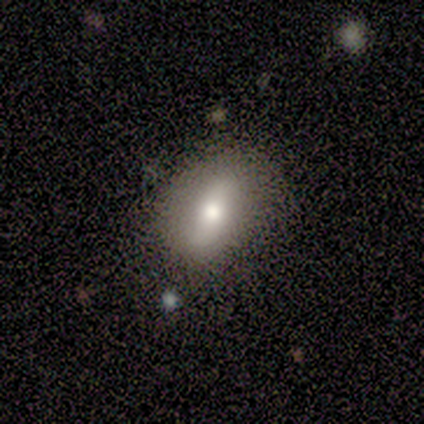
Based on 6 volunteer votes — A featured or disk galaxy (50%) with no bar (67%), no spiral arms (100%) and a large central bulge (33%, tied with moderate and small).

Vote fractions:
- Smooth or featured? featured or disk: 50% / smooth: 33% / star or artifact: 17%
- Edge-on disk? no: 100% / yes: 0%
- Bar? no: 67% / weak: 33% / strong: 0%
- Spiral arms? no: 100% / yes: 0%
- Bulge size? large: 33% (tied) / moderate: 33% (tied) / small: 33% (tied) / dominant: 0% / none: 0%
- Merging? none: 80% / merger: 20% / minor disturbance: 0% / major disturbance: 0%